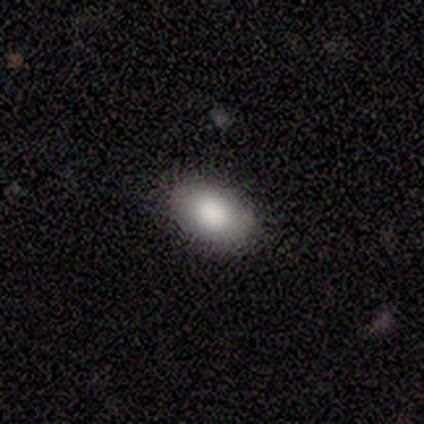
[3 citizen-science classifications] smooth-or-featured: smooth: 67% | star or artifact: 33% | featured or disk: 0%
  how-rounded: in between: 100% | round: 0% | cigar-shaped: 0%
  merging: none: 50% (tied) | minor disturbance: 50% (tied) | major disturbance: 0% | merger: 0%